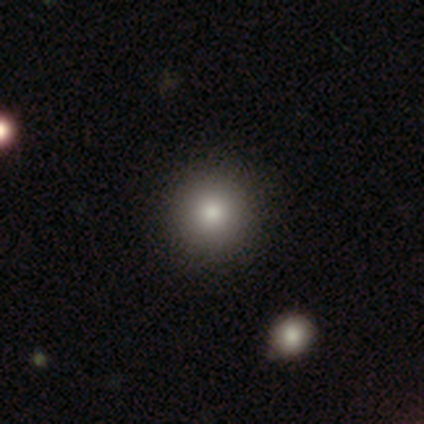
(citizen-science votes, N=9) Smooth or featured: smooth — 78% (featured or disk — 11%)
How rounded: round — 86% (in between — 14%)
Merging: none — 88% (minor disturbance — 12%)